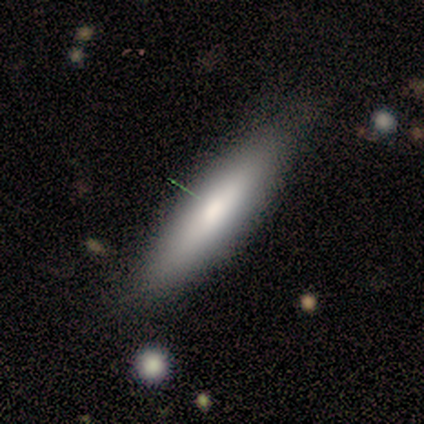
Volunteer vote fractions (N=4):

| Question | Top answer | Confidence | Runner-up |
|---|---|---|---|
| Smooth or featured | featured or disk | 100% | — |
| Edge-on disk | yes | 100% | — |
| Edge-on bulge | rounded | 75% | none (25%) |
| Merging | none | 75% | minor disturbance (25%) |